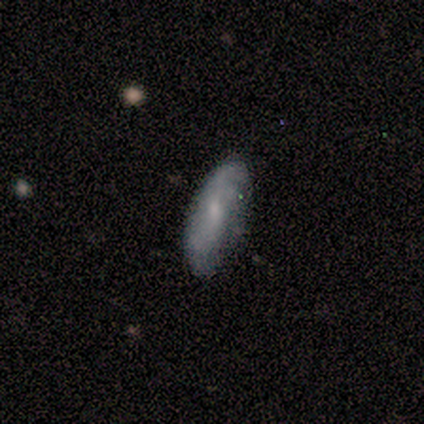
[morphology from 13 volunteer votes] A smooth galaxy with no disk features (69%) that is in between round and cigar-shaped (67%). Merging: none (77%).